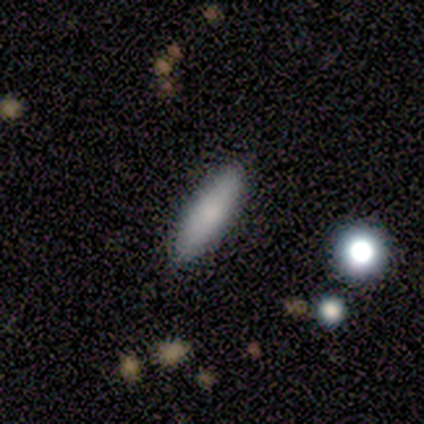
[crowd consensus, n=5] A smooth galaxy with no disk features (60%) that is cigar-shaped (100%).

Vote fractions:
- Smooth or featured? smooth: 60% / featured or disk: 20% / star or artifact: 20%
- How rounded? cigar-shaped: 100% / round: 0% / in between: 0%
- Merging? none: 100% / minor disturbance: 0% / major disturbance: 0% / merger: 0%